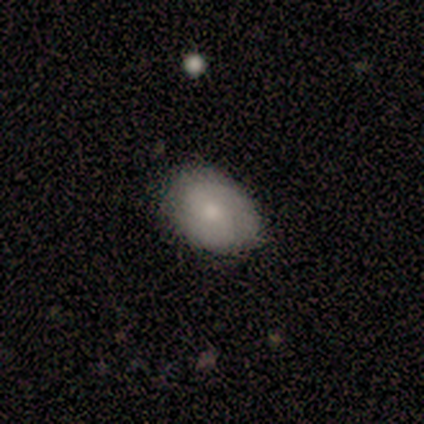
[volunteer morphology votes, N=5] smooth 80%, featured or disk 20%, star or artifact 0%. Down the decision tree: how rounded — in between (100%); merging — none (100%).